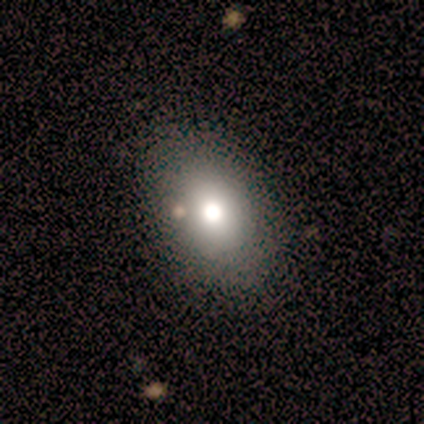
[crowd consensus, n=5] Overall: smooth (80%). How rounded: round (50%, tied with in between). Merging: none (40%, tied with minor disturbance).